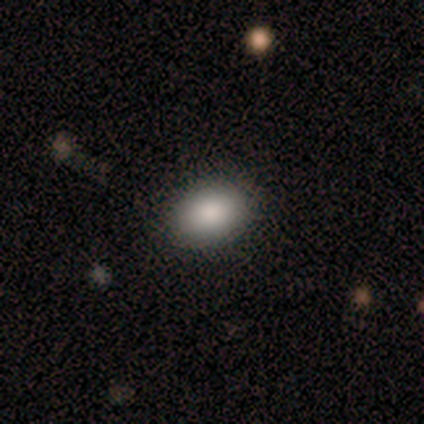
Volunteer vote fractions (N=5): Morphology: type=smooth (80%); roundness=in between (75%); merging=none (60%).